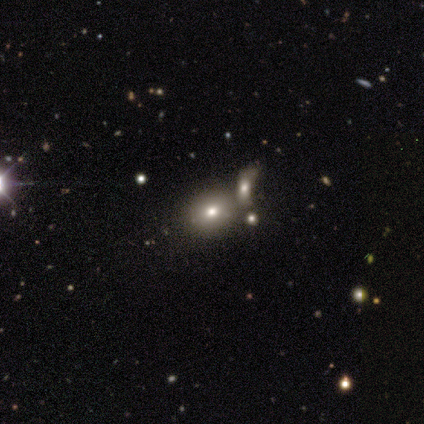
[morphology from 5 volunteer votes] Overall: smooth (40%, tied with star or artifact). How rounded: round (50%, tied with in between). Merging: none (67%; merger 33%).